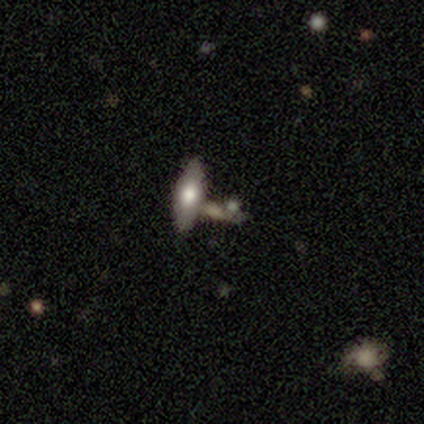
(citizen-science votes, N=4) smooth 100%, featured or disk 0%, star or artifact 0%. Down the decision tree: how rounded — in between (50%, tied with cigar-shaped); merging — merger (75%).